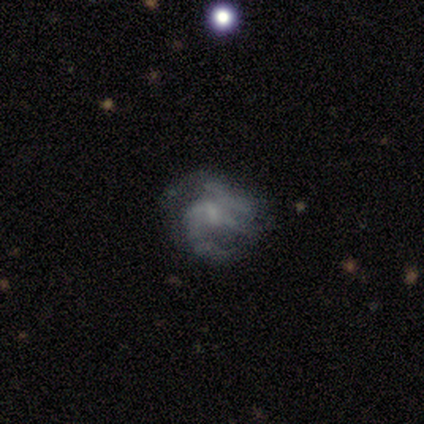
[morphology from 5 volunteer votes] Smooth or featured: featured or disk — 100%
Edge-on disk: no — 100%
Bar: weak — 60% (no — 40%)
Spiral arms: yes — 100%
Spiral winding: medium — 40% (tied with loose — 40%)
Spiral arm count: 2 — 60% (3 — 20%)
Bulge size: moderate — 40% (tied with small — 40%)
Merging: major disturbance — 60% (none — 20%)